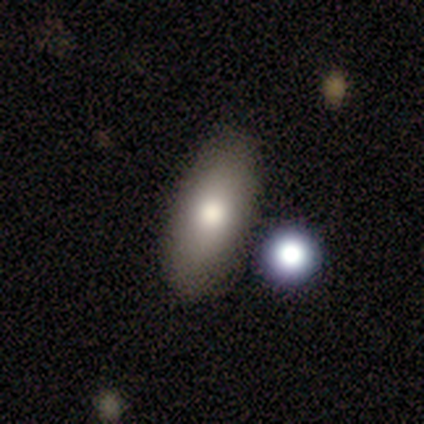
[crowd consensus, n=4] Smooth or featured: smooth — 50% (tied with featured or disk — 50%)
How rounded: in between — 100%
Merging: none — 100%